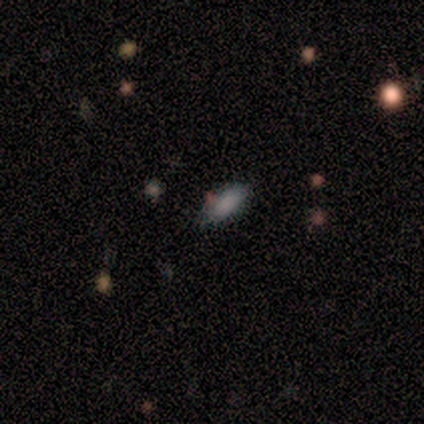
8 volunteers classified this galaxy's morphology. smooth_or_featured: smooth (p=0.75) [alt: featured or disk p=0.12]
how_rounded: in between (p=1.00)
merging: none (p=0.71) [alt: minor disturbance p=0.14]